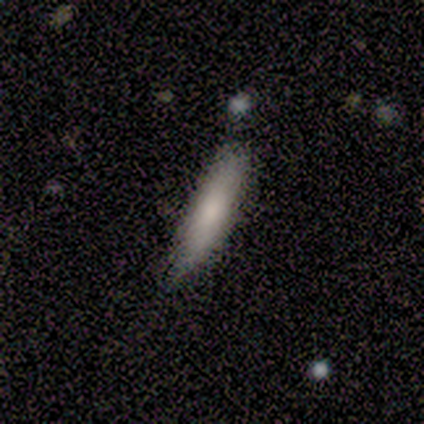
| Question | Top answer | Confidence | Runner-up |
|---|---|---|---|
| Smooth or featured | smooth | 66% | featured or disk (22%) |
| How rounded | cigar-shaped | 85% | in between (15%) |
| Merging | none | 64% | minor disturbance (28%) |